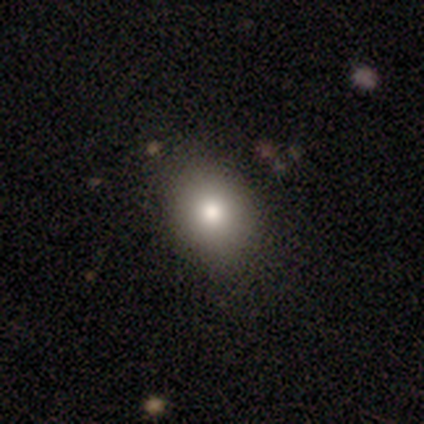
smooth 50%, featured or disk 25%, star or artifact 25%. Down the decision tree: how rounded — round (50%, tied with in between); merging — none (67%).